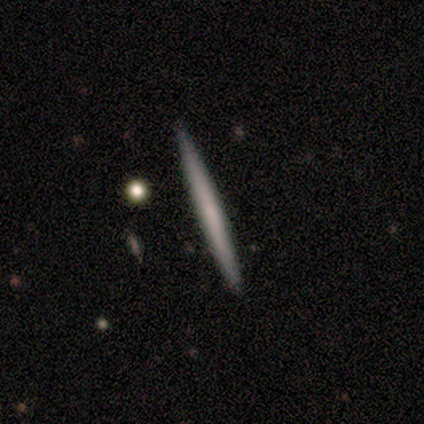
Smooth or featured? featured or disk (60%)
Edge-on disk? yes (100%)
Edge-on bulge? rounded (67%)
Merging? none (100%)